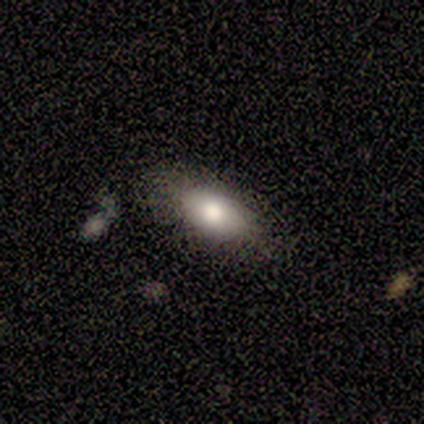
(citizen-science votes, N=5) Smooth or featured? smooth (100%)
How rounded? in between (100%)
Merging? none (100%)